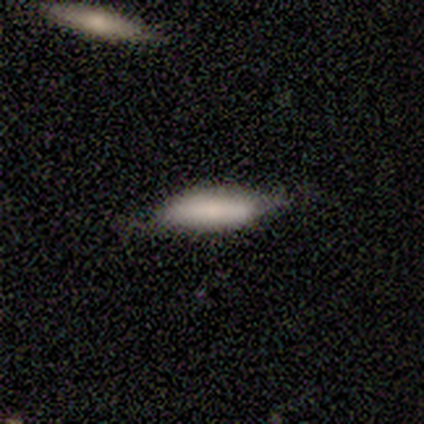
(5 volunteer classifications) A featured or disk galaxy (60%) viewed edge-on (100%) with no central bulge (67%).

Vote fractions:
- Smooth or featured? featured or disk: 60% / smooth: 40% / star or artifact: 0%
- Edge-on disk? yes: 100% / no: 0%
- Edge-on bulge? none: 67% / rounded: 33% / boxy: 0%
- Merging? none: 80% / minor disturbance: 20% / major disturbance: 0% / merger: 0%